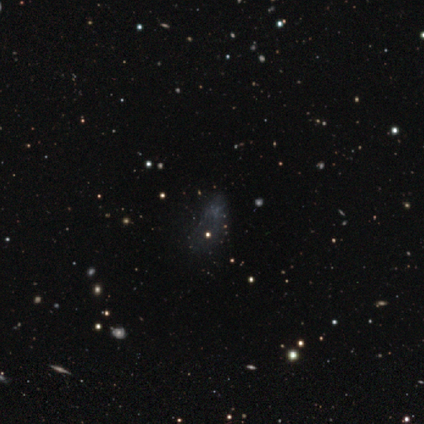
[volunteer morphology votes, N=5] Q: Smooth or featured?
A: star or artifact (80%); runner-up: featured or disk (20%)